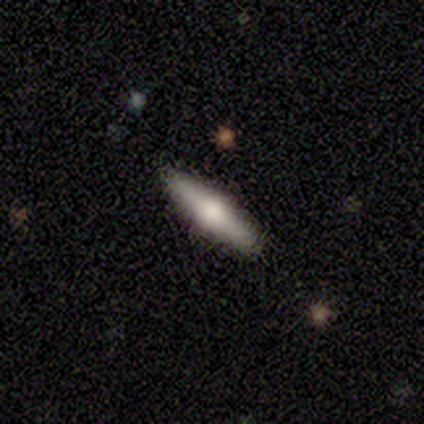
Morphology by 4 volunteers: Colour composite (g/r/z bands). It shows a featured or disk galaxy (75%) viewed edge-on (100%) with a rounded central bulge (100%). Merging: none (100%).